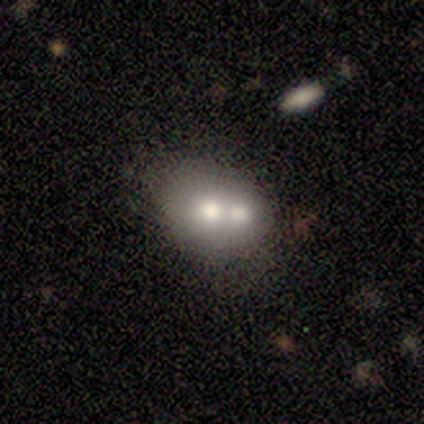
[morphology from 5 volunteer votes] This appears to be a smooth galaxy with no disk features (60%) that is round (67%). Merging: merger (80%).